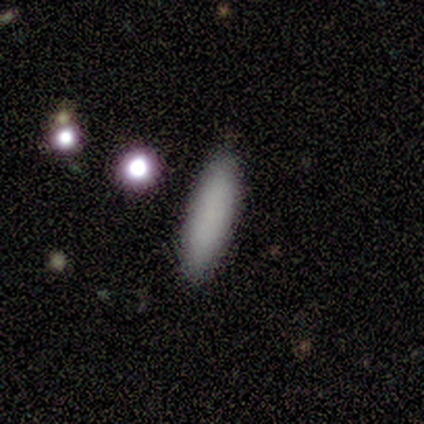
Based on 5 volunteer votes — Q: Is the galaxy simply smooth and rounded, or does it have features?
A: smooth — 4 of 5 (80%).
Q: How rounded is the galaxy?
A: in between — 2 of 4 (50%, tied with cigar-shaped).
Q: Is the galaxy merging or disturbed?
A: none — 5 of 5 (100%).